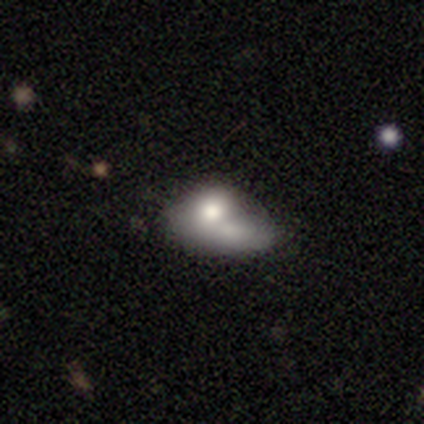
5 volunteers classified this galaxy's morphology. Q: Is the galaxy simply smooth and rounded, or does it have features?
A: smooth — 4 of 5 (80%).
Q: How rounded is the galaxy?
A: in between — 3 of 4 (75%).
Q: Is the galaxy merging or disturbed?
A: merger — 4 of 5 (80%).